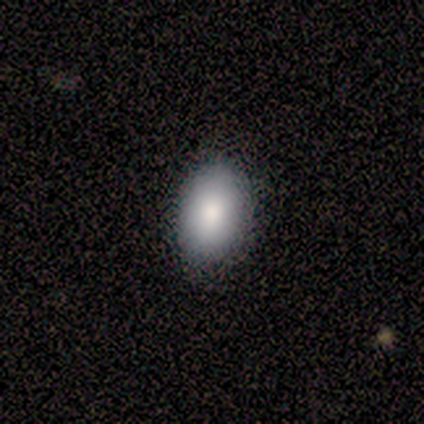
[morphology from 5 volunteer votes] Smooth or featured? smooth (80%)
How rounded? in between (100%)
Merging? none (100%)